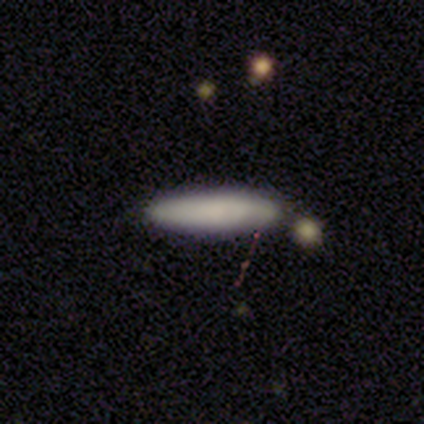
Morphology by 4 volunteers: A smooth galaxy with no disk features (100%) that is cigar-shaped (75%). Merging: none (50%).